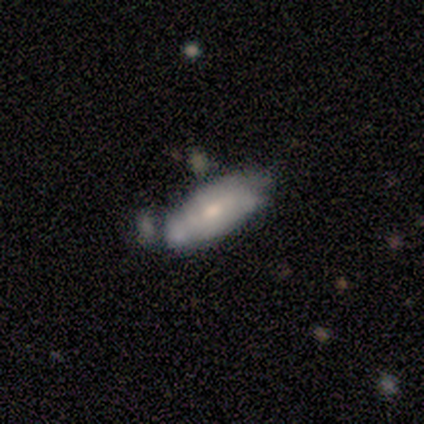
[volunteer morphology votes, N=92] Smooth or featured? smooth (52%)
How rounded? in between (79%)
Merging? none (47%)